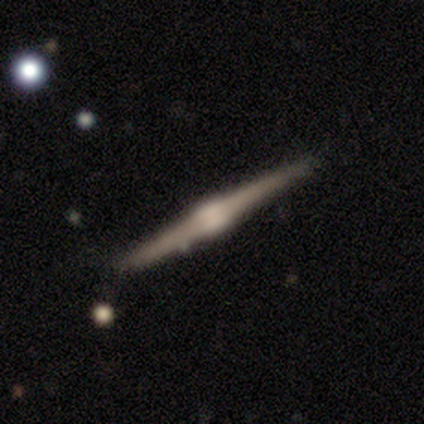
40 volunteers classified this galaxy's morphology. smooth_or_featured: featured or disk (p=0.93) [alt: smooth p=0.05]
disk_edge_on: yes (p=1.00)
edge_on_bulge: rounded (p=0.62) [alt: boxy p=0.35]
merging: none (p=0.85) [alt: minor disturbance p=0.10]